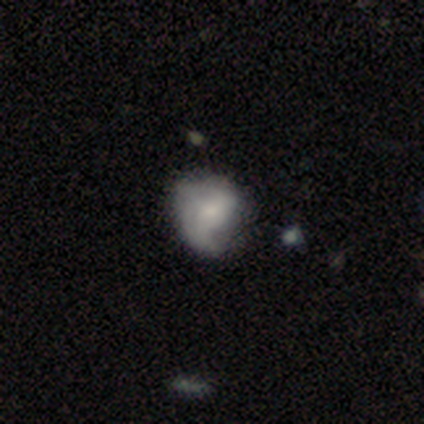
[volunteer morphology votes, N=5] Overall: smooth (60%; featured or disk 40%). How rounded: round (67%; in between 33%). Merging: major disturbance (60%; minor disturbance 40%).